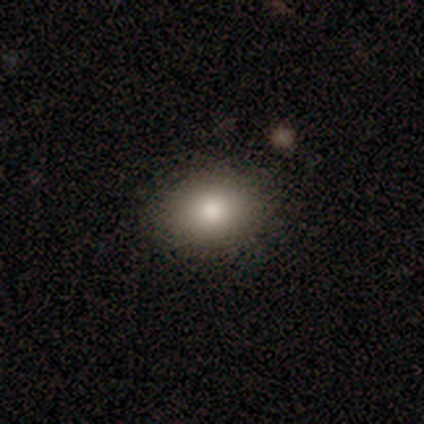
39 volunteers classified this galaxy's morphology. Smooth or featured?
  - smooth: 90% *
  - featured or disk: 8%
  - star or artifact: 3%
How rounded?
  - in between: 71% *
  - round: 29%
  - cigar-shaped: 0%
Merging?
  - none: 95% *
  - minor disturbance: 3%
  - major disturbance: 3%
  - merger: 0%